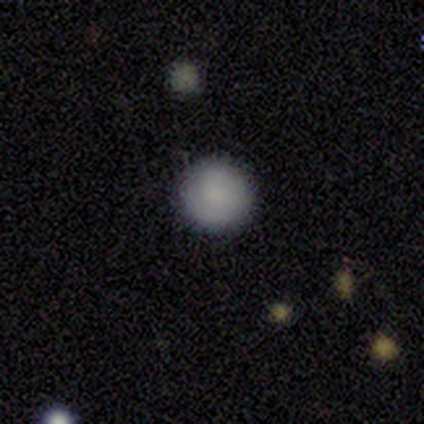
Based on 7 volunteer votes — Q: Smooth or featured?
A: smooth (86%); runner-up: featured or disk (14%)
Q: How rounded?
A: round (100%)
Q: Merging?
A: none (100%)